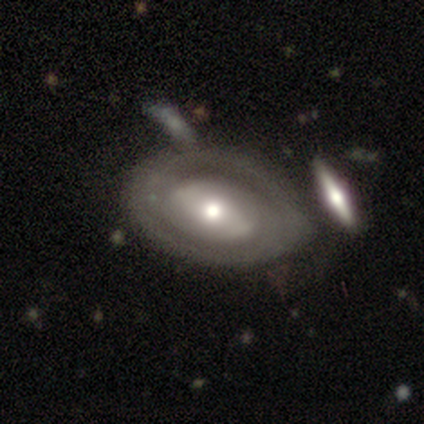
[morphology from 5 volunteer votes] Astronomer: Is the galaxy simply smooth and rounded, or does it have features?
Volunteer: smooth — 40%, tied with featured or disk at 40%.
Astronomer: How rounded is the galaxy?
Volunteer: round — 50%, tied with in between at 50%.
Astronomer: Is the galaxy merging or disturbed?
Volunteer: merger — 50%.